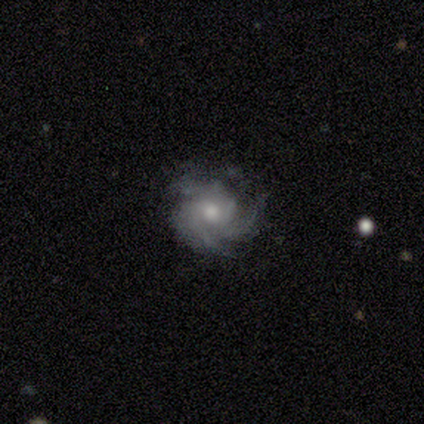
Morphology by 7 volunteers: smooth_or_featured: featured or disk (p=1.00)
disk_edge_on: no (p=1.00)
bar: no (p=0.86) [alt: weak p=0.14]
has_spiral_arms: yes (p=1.00)
spiral_winding: medium (p=0.57) [alt: tight p=0.29]
spiral_arm_count: 3 (p=0.43) [tied with: can't tell p=0.43]
bulge_size: moderate (p=0.57) [alt: small p=0.43]
merging: none (p=0.71) [alt: minor disturbance p=0.29]